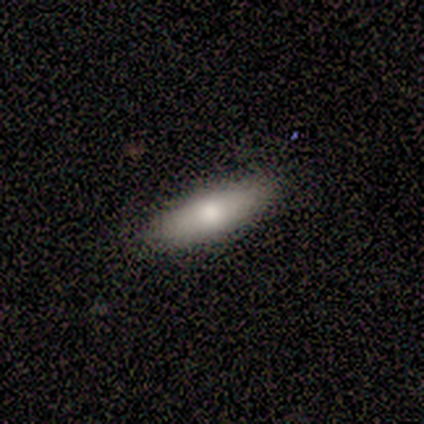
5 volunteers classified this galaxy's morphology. Smooth or featured? smooth (80%)
How rounded? in between (75%)
Merging? none (100%)